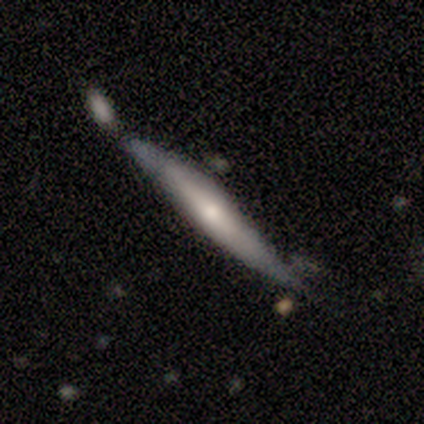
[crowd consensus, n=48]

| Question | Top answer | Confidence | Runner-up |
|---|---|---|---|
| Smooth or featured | featured or disk | 62% | smooth (33%) |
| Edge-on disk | yes | 97% | no (3%) |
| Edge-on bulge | rounded | 45% | none (34%) |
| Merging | none | 50% | minor disturbance (26%) |